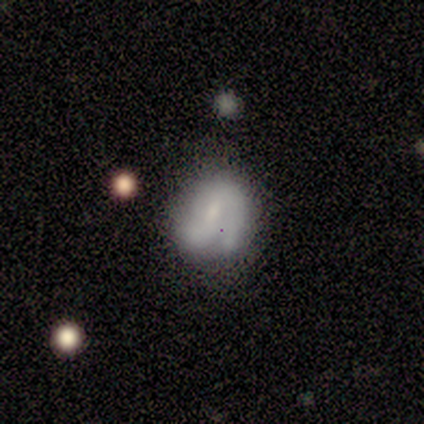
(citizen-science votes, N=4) Morphology: type=featured or disk (100%); edge-on=no (100%); bar=no (75%); spiral arms=no (75%); bulge=none (50%); merging=none (50%, tied with minor disturbance).